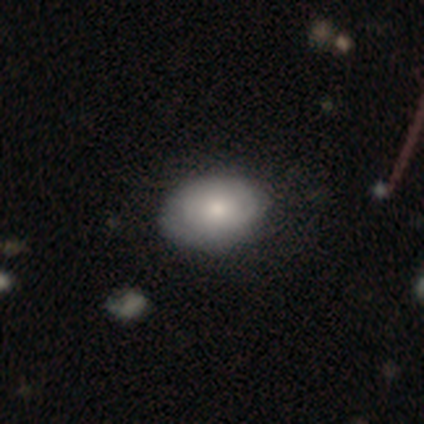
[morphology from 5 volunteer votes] This appears to be a smooth galaxy with no disk features (80%) that is in between round and cigar-shaped (75%). Merging: minor disturbance (60%).